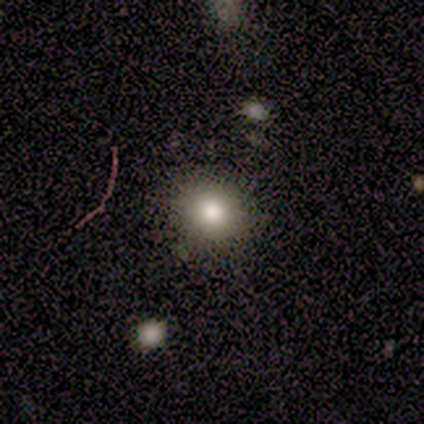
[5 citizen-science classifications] Smooth or featured? 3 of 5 (60%) said smooth. How rounded? 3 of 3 (100%) said round. Merging? 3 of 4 (75%) said none.